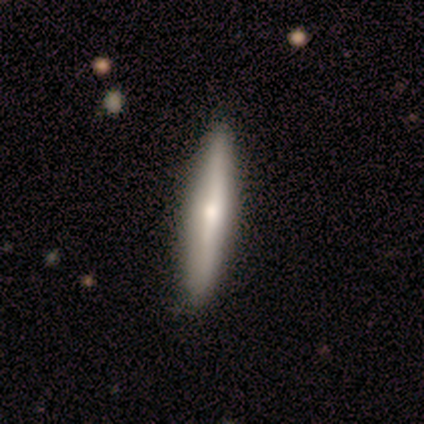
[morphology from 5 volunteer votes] smooth-or-featured: featured or disk: 80% | smooth: 20% | star or artifact: 0%
  disk-edge-on: yes: 100% | no: 0%
    edge-on-bulge: rounded: 75% | none: 25% | boxy: 0%
  merging: none: 80% | minor disturbance: 20% | major disturbance: 0% | merger: 0%